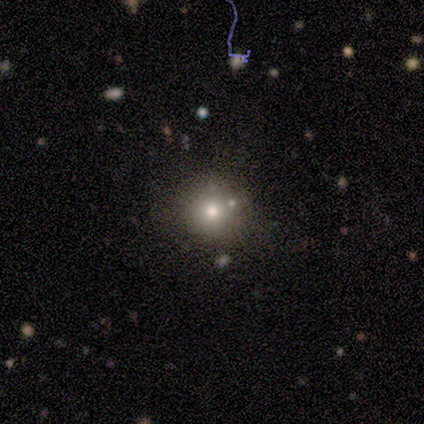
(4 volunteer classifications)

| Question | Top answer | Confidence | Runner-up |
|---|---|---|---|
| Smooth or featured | smooth | 100% | — |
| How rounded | round | 100% | — |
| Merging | none | 75% | minor disturbance (25%) |